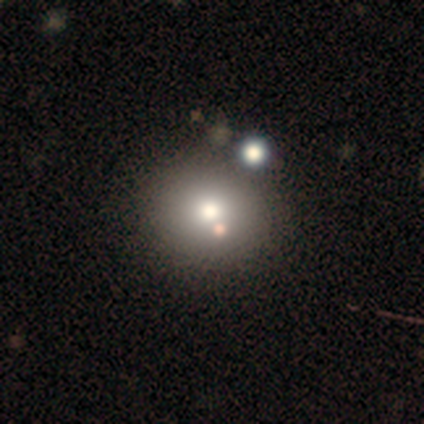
A smooth galaxy with no disk features (67%) that is round (100%).

Vote fractions:
- Smooth or featured? smooth: 67% / featured or disk: 33% / star or artifact: 0%
- How rounded? round: 100% / in between: 0% / cigar-shaped: 0%
- Merging? minor disturbance: 50% / none: 33% / merger: 17% / major disturbance: 0%